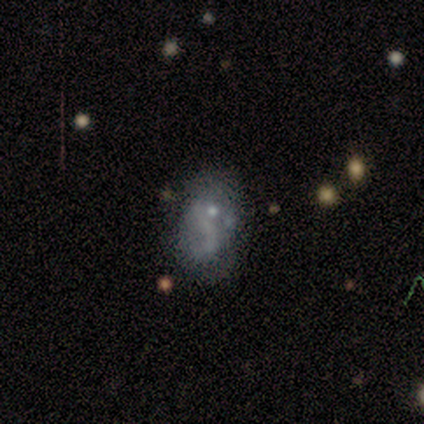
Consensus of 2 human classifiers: Morphology: type=smooth (100%); roundness=round (50%, tied with in between); merging=none (50%, tied with minor disturbance).